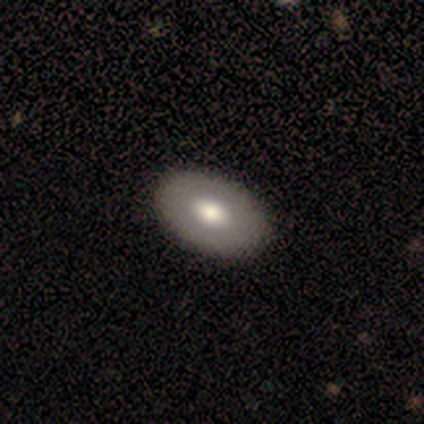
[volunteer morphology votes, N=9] Smooth or featured?
  - smooth: 78% *
  - featured or disk: 22%
  - star or artifact: 0%
How rounded?
  - in between: 100% *
  - round: 0%
  - cigar-shaped: 0%
Merging?
  - none: 89% *
  - minor disturbance: 11%
  - major disturbance: 0%
  - merger: 0%